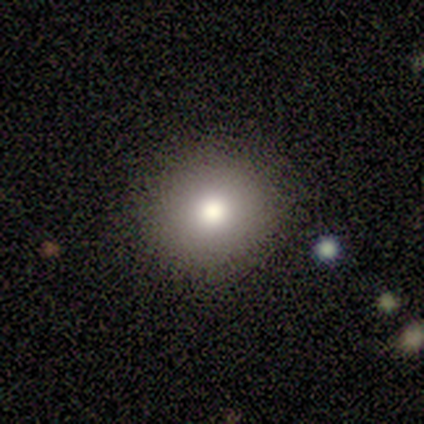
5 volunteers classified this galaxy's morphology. type=smooth (100%); roundness=round (100%); merging=none (100%).